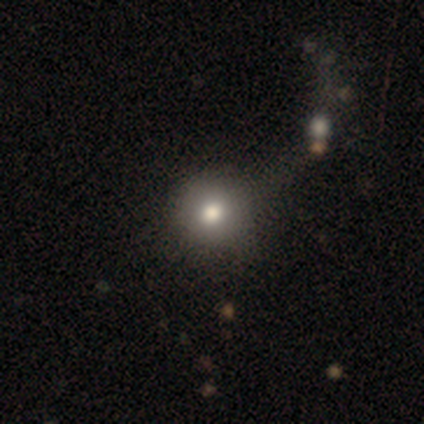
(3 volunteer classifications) smooth-or-featured: smooth: 100% | featured or disk: 0% | star or artifact: 0%
  how-rounded: round: 100% | in between: 0% | cigar-shaped: 0%
  merging: none: 100% | minor disturbance: 0% | major disturbance: 0% | merger: 0%